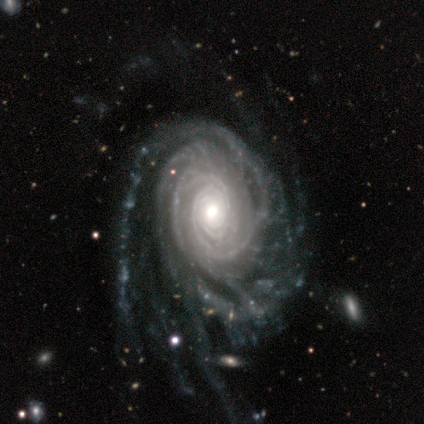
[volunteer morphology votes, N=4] smooth-or-featured: featured or disk: 100% | smooth: 0% | star or artifact: 0%
  disk-edge-on: no: 100% | yes: 0%
    bar: no: 100% | strong: 0% | weak: 0%
    has-spiral-arms: yes: 100% | no: 0%
      spiral-winding: tight: 100% | medium: 0% | loose: 0%
      spiral-arm-count: more than 4: 75% | can't tell: 25% | 1: 0% | 2: 0% | 3: 0% | 4: 0%
    bulge-size: large: 75% | moderate: 25% | dominant: 0% | small: 0% | none: 0%
  merging: major disturbance: 50% | none: 25% | minor disturbance: 25% | merger: 0%